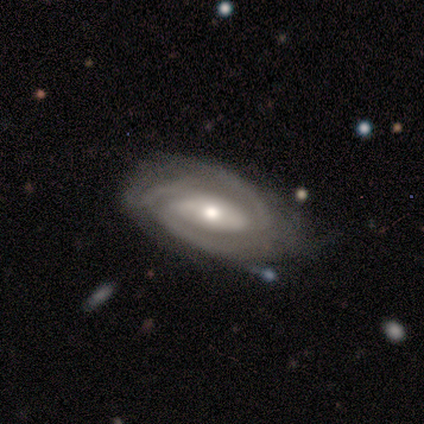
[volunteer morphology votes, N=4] This is clearly a featured or disk galaxy (100%). It is clearly not viewed edge-on (100%). Bar: possibly strong (50%). Spiral arm pattern: clearly yes (100%). Spiral arm count: possibly 2 (50%). Spiral winding: likely tight (75%). Central bulge: clearly moderate (100%). Merging: possibly none (50%, tied with minor disturbance).